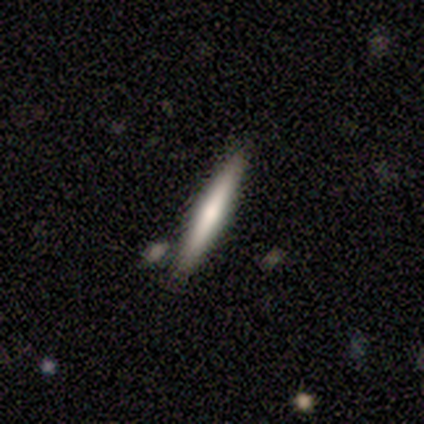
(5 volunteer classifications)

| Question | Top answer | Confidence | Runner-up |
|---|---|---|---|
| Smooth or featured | smooth | 60% | featured or disk (40%) |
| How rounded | cigar-shaped | 100% | — |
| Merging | none | 80% | merger (20%) |